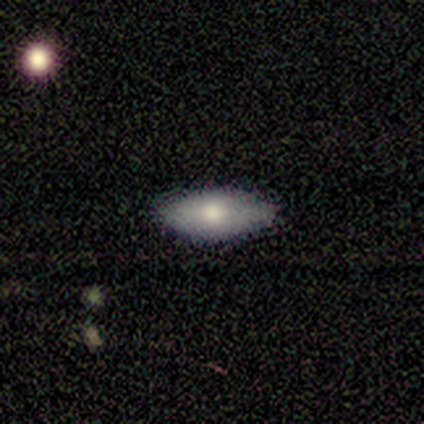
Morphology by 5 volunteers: smooth-or-featured: smooth: 100% | featured or disk: 0% | star or artifact: 0%
  how-rounded: in between: 100% | round: 0% | cigar-shaped: 0%
  merging: none: 100% | minor disturbance: 0% | major disturbance: 0% | merger: 0%